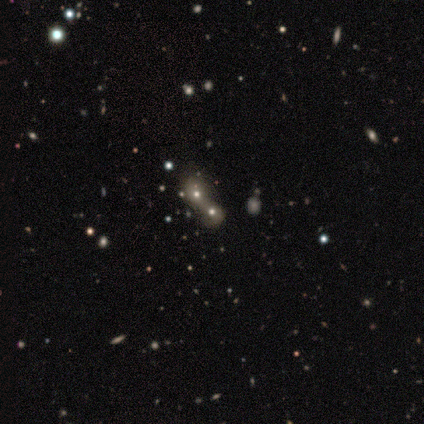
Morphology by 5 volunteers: smooth_or_featured: smooth (p=0.60) [alt: star or artifact p=0.40]
how_rounded: in between (p=0.67) [alt: round p=0.33]
merging: merger (p=1.00)